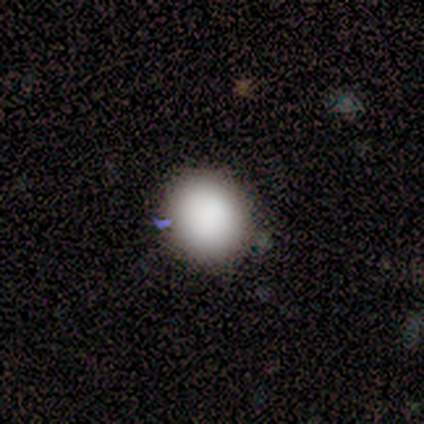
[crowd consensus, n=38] A smooth galaxy with no disk features (82%) that is round (77%).

Vote fractions:
- Smooth or featured? smooth: 82% / star or artifact: 11% / featured or disk: 8%
- How rounded? round: 77% / in between: 23% / cigar-shaped: 0%
- Merging? none: 94% / minor disturbance: 3% / merger: 3% / major disturbance: 0%